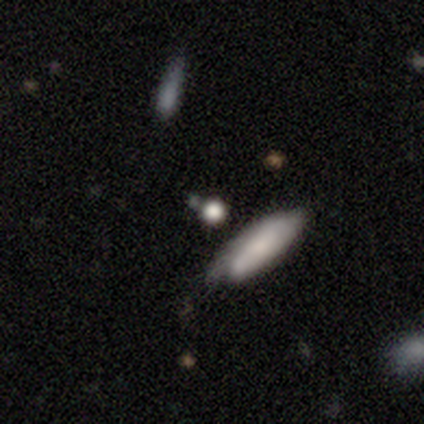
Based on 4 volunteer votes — smooth-or-featured: star or artifact: 50% | smooth: 25% | featured or disk: 25%